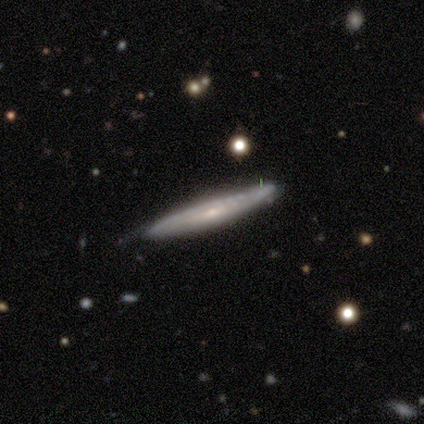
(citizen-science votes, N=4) This appears to be a featured or disk galaxy (75%) viewed edge-on (100%) with a rounded central bulge (67%). Merging: none (100%).